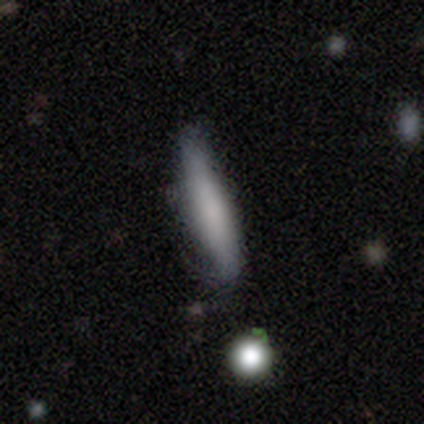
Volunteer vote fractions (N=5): A smooth galaxy with no disk features (40%, tied with star or artifact) that is cigar-shaped (100%). Merging: none (100%).